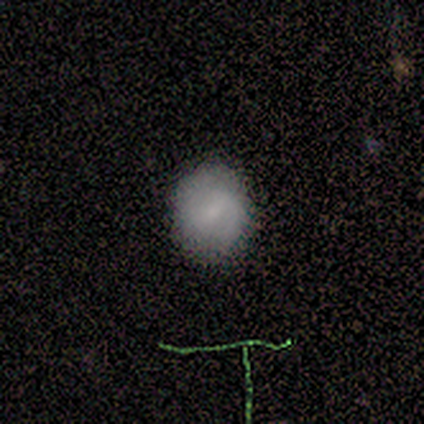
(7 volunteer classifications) smooth-or-featured: smooth: 43% (tied) | star or artifact: 43% (tied) | featured or disk: 14%
  how-rounded: round: 100% | in between: 0% | cigar-shaped: 0%
  merging: none: 100% | minor disturbance: 0% | major disturbance: 0% | merger: 0%